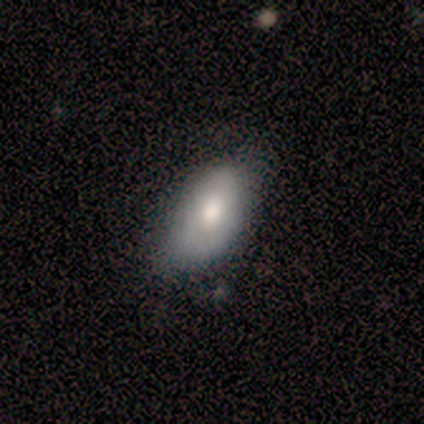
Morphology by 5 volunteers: Smooth or featured? 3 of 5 (60%) said smooth. How rounded? 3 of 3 (100%) said in between. Merging? 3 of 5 (60%) said none.